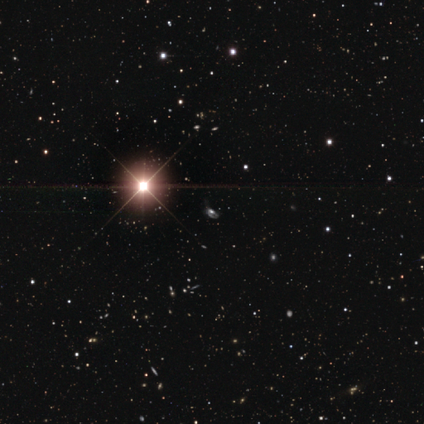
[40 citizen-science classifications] This is clearly a star or artifact rather than a galaxy (82%).